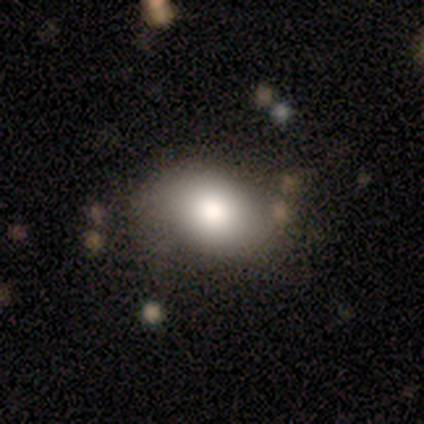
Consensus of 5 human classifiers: Volunteers were most divided on "how rounded": round: 80%, in between: 20%, cigar-shaped: 0%. More confident: smooth or featured — smooth (100%); merging — none (80%).